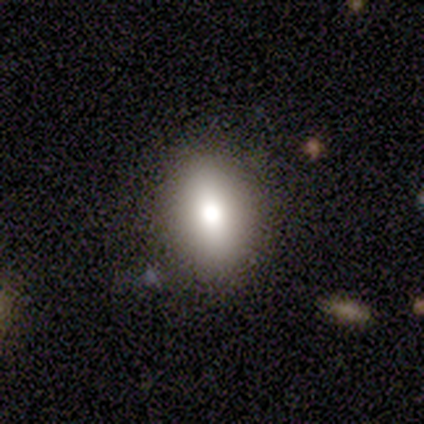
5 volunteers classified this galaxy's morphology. A smooth galaxy with no disk features (80%) that is round (50%, tied with in between). Merging: none (60%).